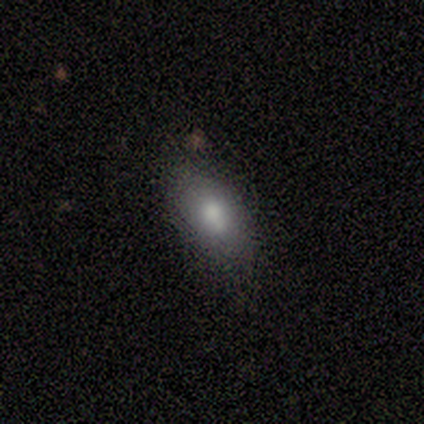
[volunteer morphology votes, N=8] smooth 88%, featured or disk 12%, star or artifact 0%. Down the decision tree: how rounded — in between (100%); merging — none (88%).